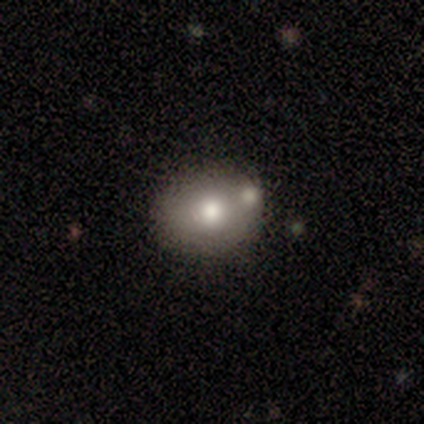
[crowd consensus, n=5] Volunteers were most divided on "how rounded" (2-way tie): round: 50%, in between: 50%, cigar-shaped: 0%. More confident: smooth or featured — smooth (80%); merging — none (60%).